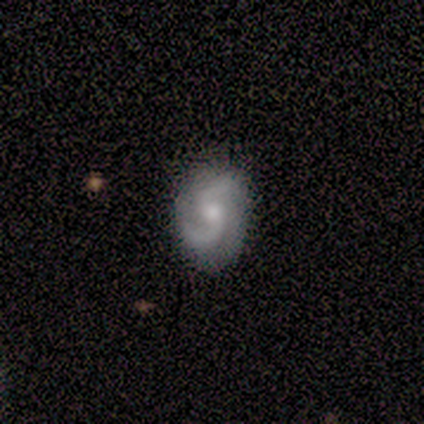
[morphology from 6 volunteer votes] Overall: featured or disk (83%). Edge-on disk: no (100%). Bar: no (60%; weak 40%). Spiral arms: yes (100%). Spiral arm count: 2 (80%). Spiral winding: medium (60%; tight 20%). Bulge size: small (80%). Merging: none (100%).